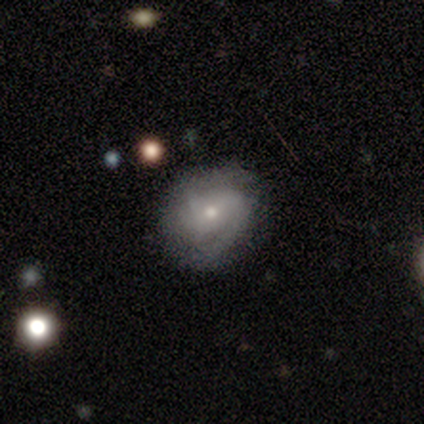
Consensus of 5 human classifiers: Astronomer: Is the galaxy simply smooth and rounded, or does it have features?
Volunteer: featured or disk — 60% (runner-up: smooth, 40%).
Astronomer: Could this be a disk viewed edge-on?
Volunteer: no — 100%.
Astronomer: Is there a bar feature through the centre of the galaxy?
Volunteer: no — 67%.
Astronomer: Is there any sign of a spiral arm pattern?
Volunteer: yes — 100%.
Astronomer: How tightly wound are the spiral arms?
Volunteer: medium — 67%.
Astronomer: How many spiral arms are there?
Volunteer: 2 — 67%.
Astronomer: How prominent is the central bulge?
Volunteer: small — 67%.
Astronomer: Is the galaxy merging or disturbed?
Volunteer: none — 80%.